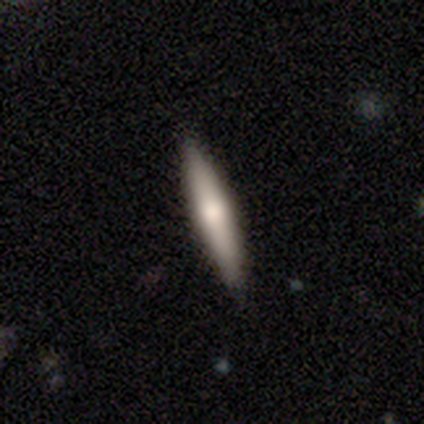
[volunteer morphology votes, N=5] This is likely a smooth galaxy (60%). How rounded: clearly cigar-shaped (100%). Merging: clearly none (100%).